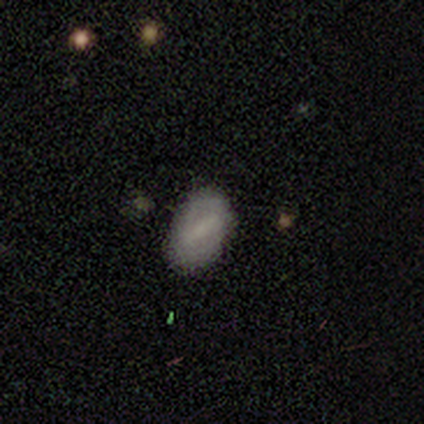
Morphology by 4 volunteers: A smooth galaxy with no disk features (50%, tied with featured or disk) that is in between round and cigar-shaped (100%).

Vote fractions:
- Smooth or featured? smooth: 50% (tied) / featured or disk: 50% (tied) / star or artifact: 0%
- How rounded? in between: 100% / round: 0% / cigar-shaped: 0%
- Merging? none: 50% / minor disturbance: 25% / major disturbance: 25% / merger: 0%